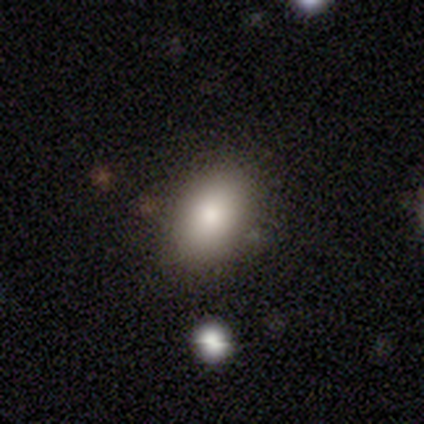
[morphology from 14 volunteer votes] This appears to be a smooth galaxy with no disk features (71%) that is in between round and cigar-shaped (80%). Merging: none (73%).